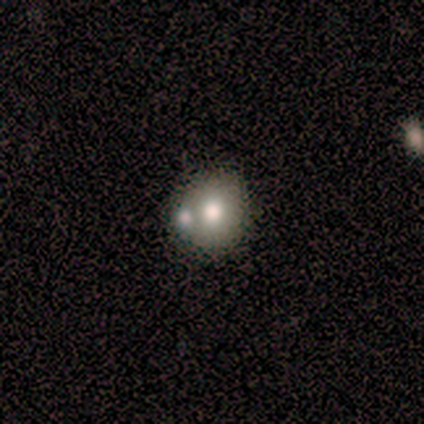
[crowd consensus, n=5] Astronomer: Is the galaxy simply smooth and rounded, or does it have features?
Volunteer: smooth — 80%.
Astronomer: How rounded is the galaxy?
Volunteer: round — 75%.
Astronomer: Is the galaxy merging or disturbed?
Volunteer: none — 60%.